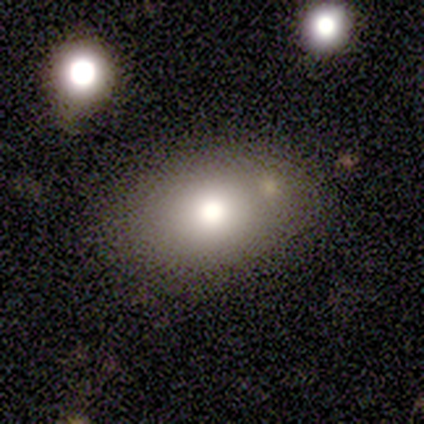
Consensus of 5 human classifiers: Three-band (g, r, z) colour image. It shows a smooth galaxy with no disk features (80%) that is in between round and cigar-shaped (75%). Merging: none (100%).